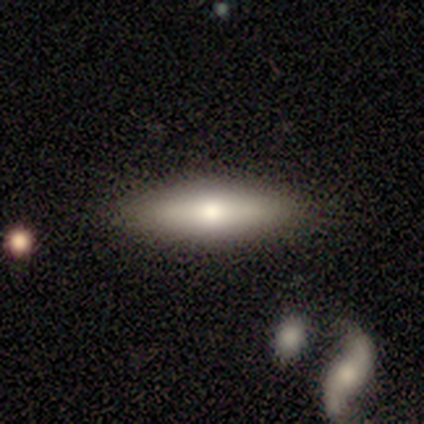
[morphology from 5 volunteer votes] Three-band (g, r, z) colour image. It shows a featured or disk galaxy (60%) viewed edge-on (100%) with a rounded central bulge (100%). Merging: none (100%).